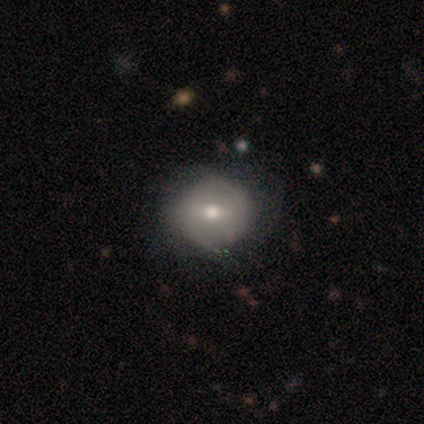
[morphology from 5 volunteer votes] Smooth or featured? featured or disk (60%)
Edge-on disk? no (100%)
Bar? strong (33%, tied with weak and no)
Spiral arms? no (67%)
Bulge size? moderate (67%)
Merging? minor disturbance (60%)